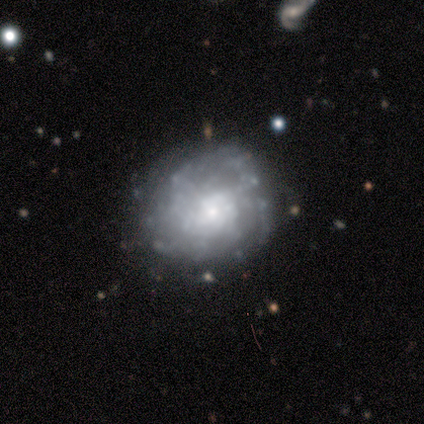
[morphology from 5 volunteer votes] smooth-or-featured: featured or disk: 60% | smooth: 40% | star or artifact: 0%
  disk-edge-on: no: 100% | yes: 0%
    bar: no: 67% | weak: 33% | strong: 0%
    has-spiral-arms: no: 67% | yes: 33%
    bulge-size: large: 33% (tied) | moderate: 33% (tied) | small: 33% (tied) | dominant: 0% | none: 0%
  merging: none: 80% | minor disturbance: 20% | major disturbance: 0% | merger: 0%